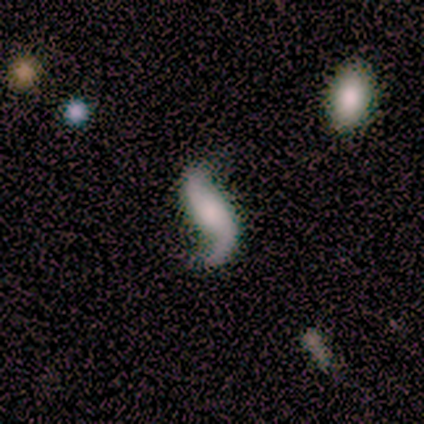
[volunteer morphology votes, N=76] Smooth or featured?
  - featured or disk: 88% *
  - smooth: 9%
  - star or artifact: 3%
Edge-on disk?
  - no: 97% *
  - yes: 3%
Bar?
  - no: 63% *
  - strong: 18%
  - weak: 18%
Spiral arms?
  - yes: 98% *
  - no: 2%
Spiral winding?
  - loose: 94% *
  - medium: 5%
  - tight: 2%
Spiral arm count?
  - 2: 91% *
  - 1: 6%
  - can't tell: 3%
  - 3: 0%
  - 4: 0%
  - more than 4: 0%
Bulge size?
  - none: 32% *
  - moderate: 26%
  - small: 20%
  - large: 17%
  - dominant: 5%
Merging?
  - none: 77% *
  - major disturbance: 11%
  - minor disturbance: 8%
  - merger: 4%